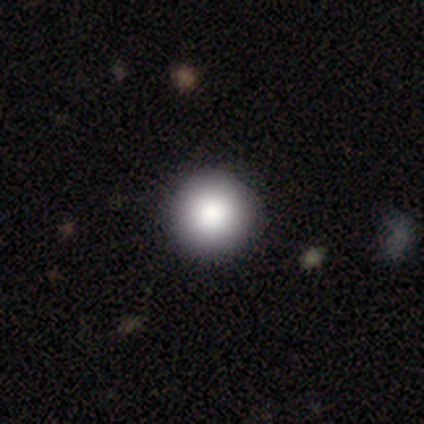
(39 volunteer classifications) Overall: smooth (85%). How rounded: round (100%). Merging: none (65%).